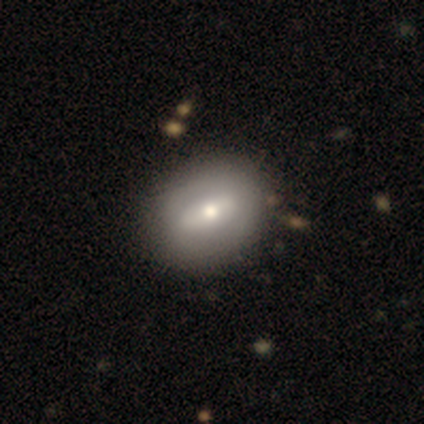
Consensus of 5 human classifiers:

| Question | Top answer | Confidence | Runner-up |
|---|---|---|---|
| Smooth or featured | smooth | 60% | featured or disk (40%) |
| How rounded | round | 67% | in between (33%) |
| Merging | none | 100% | — |